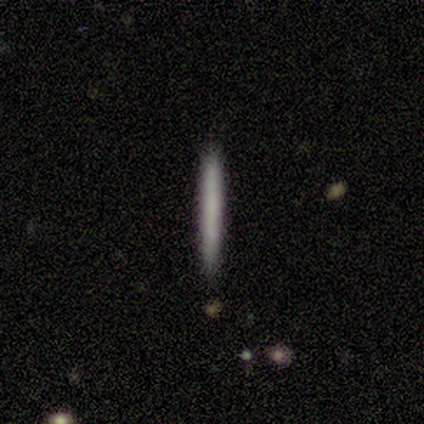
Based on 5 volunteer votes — A smooth galaxy with no disk features (80%) that is cigar-shaped (100%). Merging: none (100%).